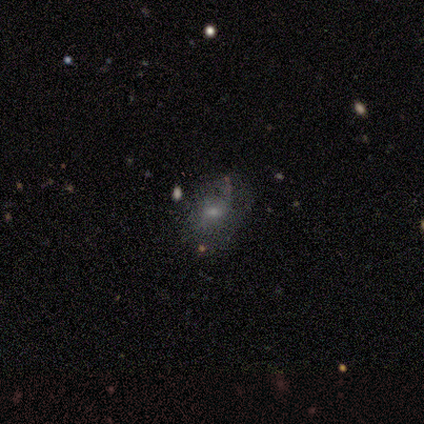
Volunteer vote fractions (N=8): Smooth or featured: smooth — 38% (tied with featured or disk — 38%)
How rounded: round — 100%
Merging: none — 83% (minor disturbance — 17%)